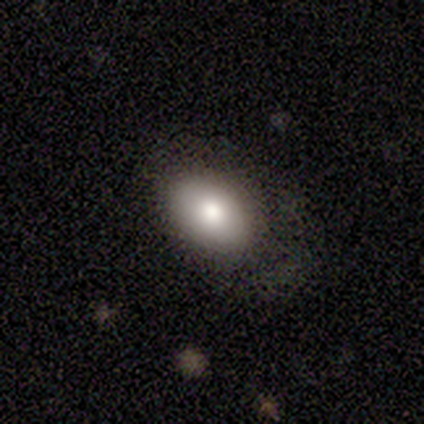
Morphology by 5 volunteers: A smooth galaxy with no disk features (100%) that is in between round and cigar-shaped (100%). Merging: none (80%).